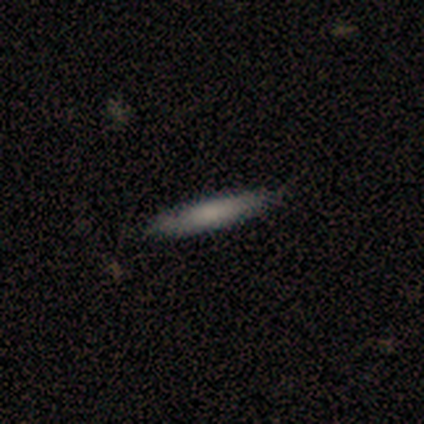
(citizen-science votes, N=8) Q: Smooth or featured?
A: smooth (88%); runner-up: featured or disk (12%)
Q: How rounded?
A: cigar-shaped (100%)
Q: Merging?
A: none (88%); runner-up: minor disturbance (12%)